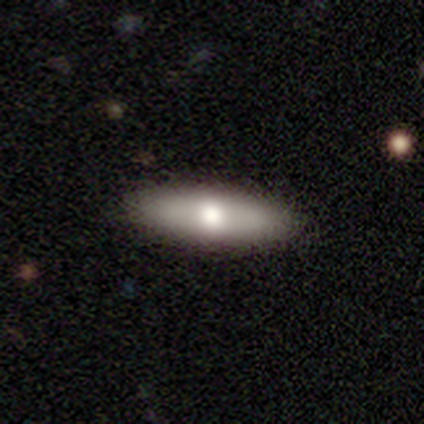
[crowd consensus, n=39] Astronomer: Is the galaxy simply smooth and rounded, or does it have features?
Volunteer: smooth — 49% (runner-up: featured or disk, 36%).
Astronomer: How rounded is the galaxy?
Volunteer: in between — 53% (runner-up: cigar-shaped, 47%).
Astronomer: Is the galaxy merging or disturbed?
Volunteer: none — 91%.